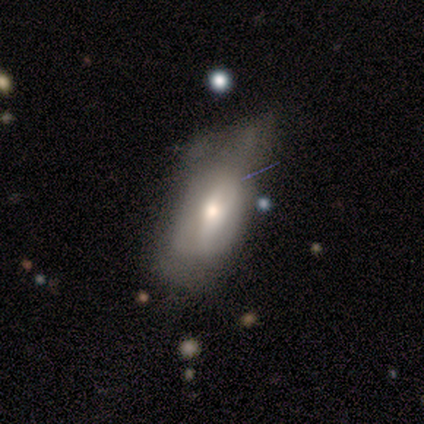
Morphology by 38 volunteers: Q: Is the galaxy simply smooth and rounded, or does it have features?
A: featured or disk — 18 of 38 (47%).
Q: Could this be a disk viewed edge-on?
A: no — 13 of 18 (72%).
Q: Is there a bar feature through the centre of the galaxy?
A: no — 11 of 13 (85%).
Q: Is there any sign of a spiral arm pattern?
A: no — 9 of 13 (69%).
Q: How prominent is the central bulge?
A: moderate — 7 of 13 (54%).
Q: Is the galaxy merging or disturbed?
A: major disturbance — 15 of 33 (45%).